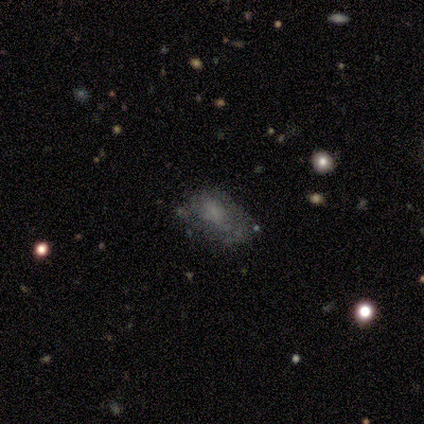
Smooth or featured? smooth (71%)
How rounded? in between (100%)
Merging? none (43%)